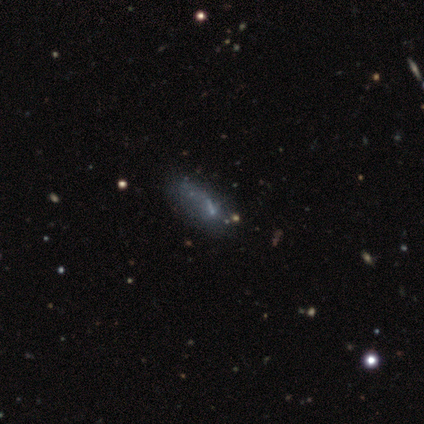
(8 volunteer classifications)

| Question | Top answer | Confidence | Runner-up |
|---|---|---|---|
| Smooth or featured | featured or disk | 50% | smooth (38%) |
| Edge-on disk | no | 100% | — |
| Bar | no | 75% | weak (25%) |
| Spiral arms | no | 100% | — |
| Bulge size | small | 50% | moderate (25%) |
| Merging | none | 29% | tied: minor disturbance (29%), merger (29%) |